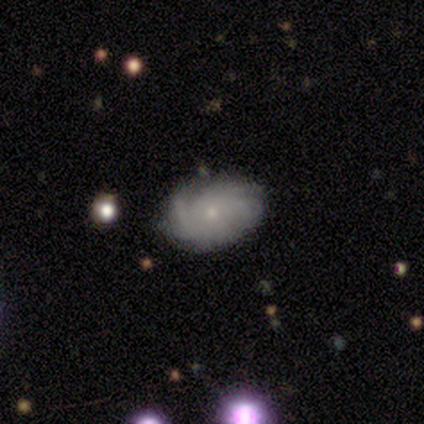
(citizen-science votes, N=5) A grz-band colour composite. It shows a featured or disk galaxy (80%) with no bar (75%), 1 (33%, tied with more than 4 and can't tell) tight (33%, tied with medium and loose) spiral arms (75%) and a small central bulge (75%). Merging: none (60%).